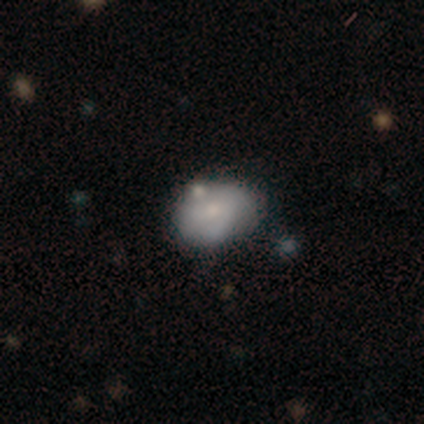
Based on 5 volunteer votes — This appears to be a smooth galaxy with no disk features (40%, tied with featured or disk) that is in between round and cigar-shaped (100%). Merging: none (50%, tied with merger).